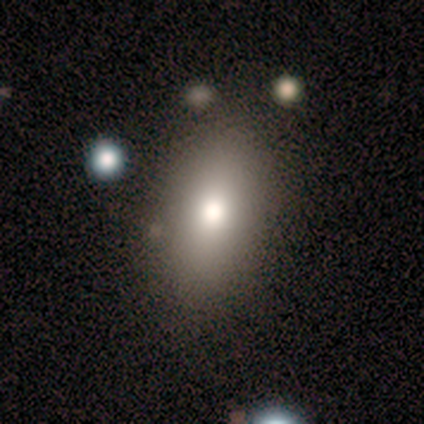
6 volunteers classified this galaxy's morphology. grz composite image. It shows a smooth galaxy with no disk features (50%) that is in between round and cigar-shaped (100%). Merging: none (80%).